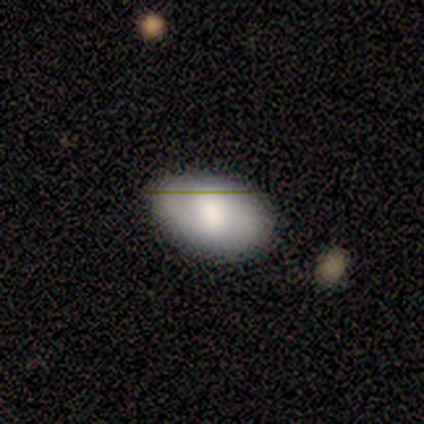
smooth-or-featured: smooth: 60% | featured or disk: 40% | star or artifact: 0%
  how-rounded: in between: 67% | round: 33% | cigar-shaped: 0%
  merging: none: 60% | minor disturbance: 40% | major disturbance: 0% | merger: 0%